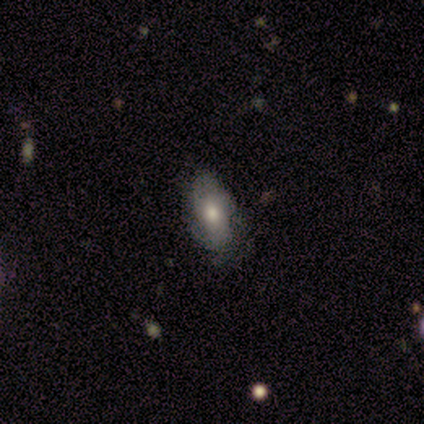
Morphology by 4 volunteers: smooth_or_featured: smooth (p=0.50) [tied with: featured or disk p=0.50]
how_rounded: in between (p=0.50) [tied with: cigar-shaped p=0.50]
merging: none (p=0.50) [tied with: minor disturbance p=0.50]